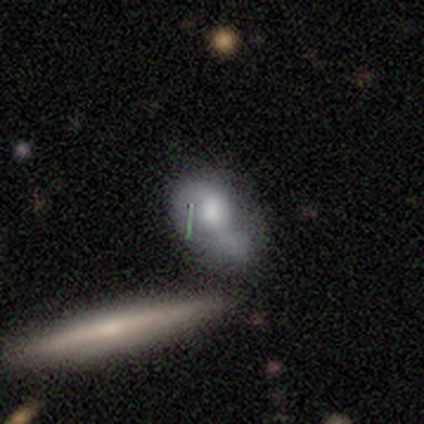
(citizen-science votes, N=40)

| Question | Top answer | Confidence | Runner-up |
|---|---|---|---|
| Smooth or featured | smooth | 68% | featured or disk (30%) |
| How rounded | in between | 78% | cigar-shaped (15%) |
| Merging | major disturbance | 28% | minor disturbance (26%) |